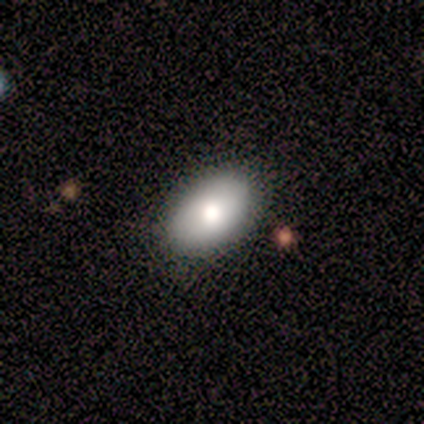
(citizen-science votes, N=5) Smooth or featured? smooth (100%)
How rounded? in between (80%)
Merging? none (80%)